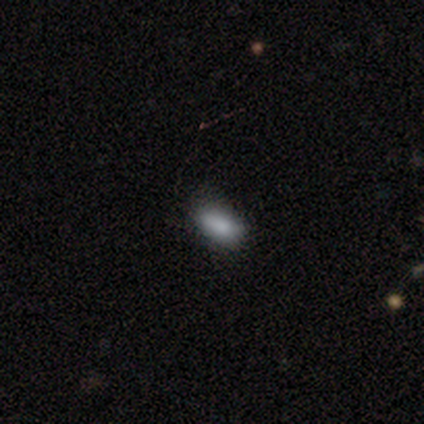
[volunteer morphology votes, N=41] A smooth galaxy with no disk features (78%) that is in between round and cigar-shaped (94%). Merging: none (58%).